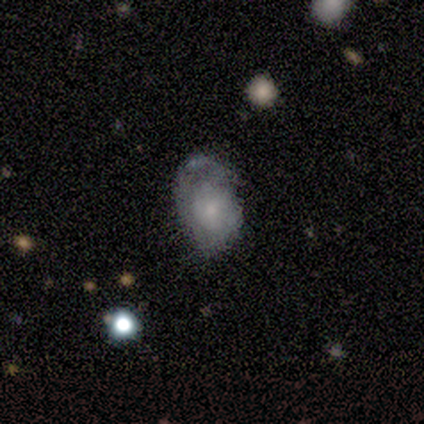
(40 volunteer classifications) Smooth or featured? featured or disk (52%)
Edge-on disk? no (95%)
Bar? no (85%)
Spiral arms? yes (75%)
Spiral winding? medium (60%)
Spiral arm count? can't tell (47%)
Bulge size? small (65%)
Merging? none (56%)